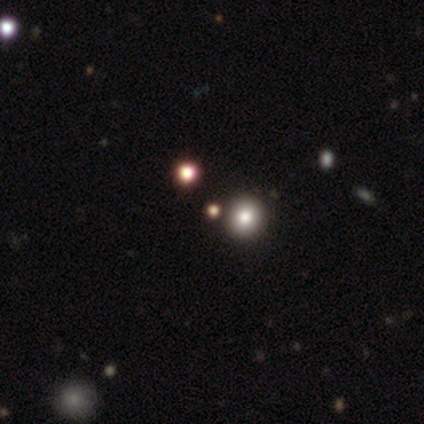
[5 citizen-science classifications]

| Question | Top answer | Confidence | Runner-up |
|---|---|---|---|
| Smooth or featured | star or artifact | 60% | smooth (40%) |